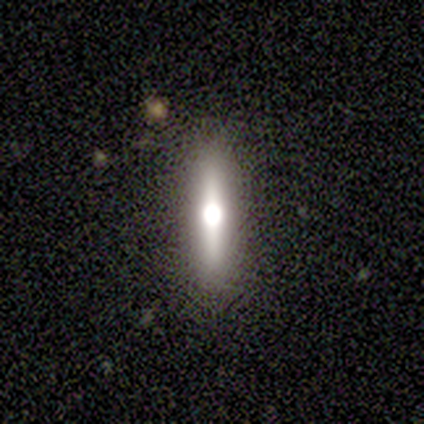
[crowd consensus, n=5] Q: Smooth or featured?
A: smooth (60%); runner-up: featured or disk (20%)
Q: How rounded?
A: cigar-shaped (100%)
Q: Merging?
A: none (75%); runner-up: minor disturbance (25%)